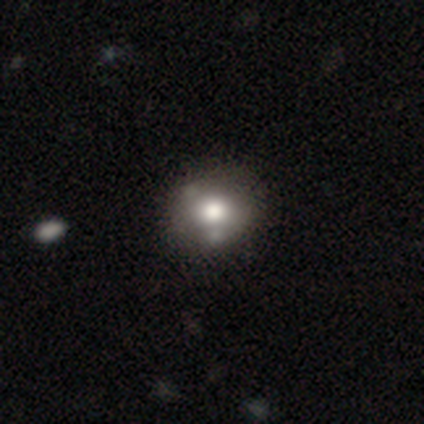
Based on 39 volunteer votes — Q: Smooth or featured?
A: smooth (69%); runner-up: featured or disk (21%)
Q: How rounded?
A: round (63%); runner-up: in between (37%)
Q: Merging?
A: none (49%); runner-up: merger (23%)